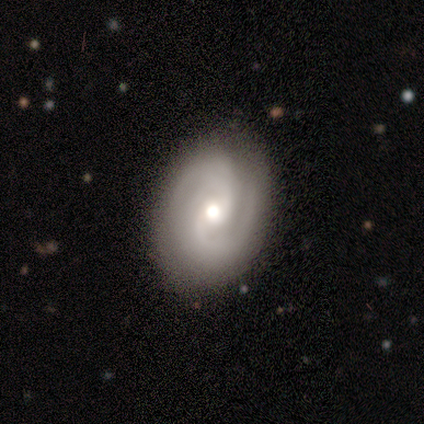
This appears to be a featured or disk galaxy (75%) with a weak bar (67%), 2 (67%) tight (67%) spiral arms (100%) and a moderate central bulge (100%). Merging: none (50%, tied with minor disturbance).